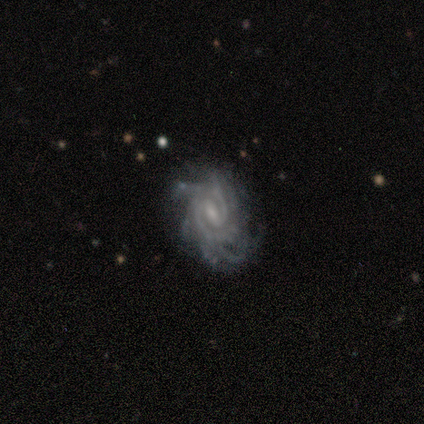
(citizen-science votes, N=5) Smooth or featured? 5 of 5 (100%) said featured or disk. Edge-on disk? 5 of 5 (100%) said no. Bar? 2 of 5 (40%, tied with no) said weak. Spiral arms? 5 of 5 (100%) said yes. Spiral winding? 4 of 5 (80%) said tight. Spiral arm count? 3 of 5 (60%) said 2. Bulge size? 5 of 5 (100%) said small. Merging? 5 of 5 (100%) said none.